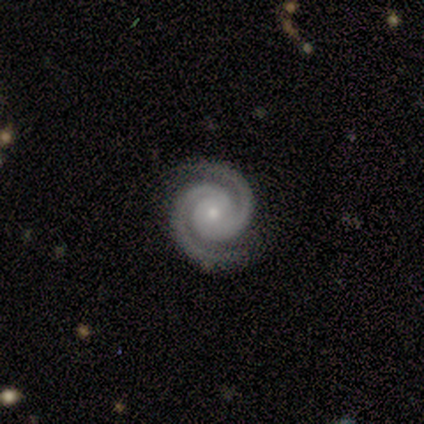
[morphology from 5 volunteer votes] Smooth or featured? 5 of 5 (100%) said featured or disk. Edge-on disk? 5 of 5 (100%) said no. Bar? 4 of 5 (80%) said no. Spiral arms? 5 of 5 (100%) said yes. Spiral winding? 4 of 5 (80%) said tight. Spiral arm count? 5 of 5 (100%) said 2. Bulge size? 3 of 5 (60%) said small. Merging? 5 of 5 (100%) said none.